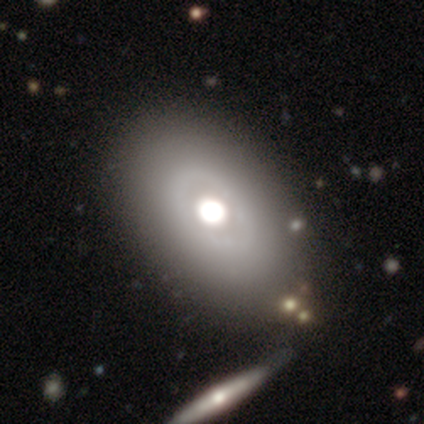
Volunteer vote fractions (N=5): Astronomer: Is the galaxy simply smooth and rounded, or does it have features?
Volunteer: smooth — 40%, tied with featured or disk at 40%.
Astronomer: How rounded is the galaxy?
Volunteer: round — 100%.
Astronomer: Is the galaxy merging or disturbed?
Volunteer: none — 100%.